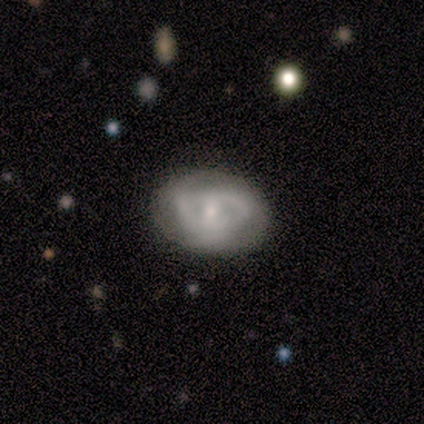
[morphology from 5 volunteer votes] Overall: featured or disk (100%). Edge-on disk: no (100%). Bar: no (60%; strong 20%). Spiral arms: yes (80%). Spiral arm count: can't tell (50%; 2 25%). Spiral winding: tight (50%, tied with medium). Bulge size: small (60%; moderate 40%). Merging: none (80%).